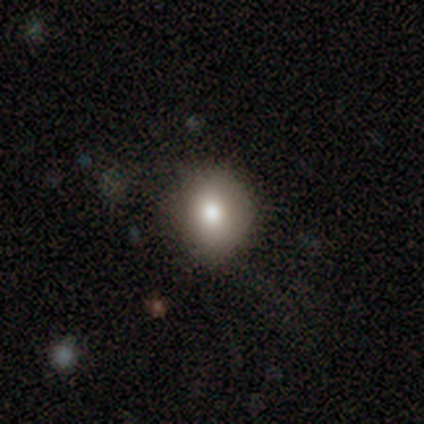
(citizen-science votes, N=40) Smooth or featured: smooth — 78% (featured or disk — 18%)
How rounded: round — 74% (in between — 26%)
Merging: none — 66% (major disturbance — 21%)